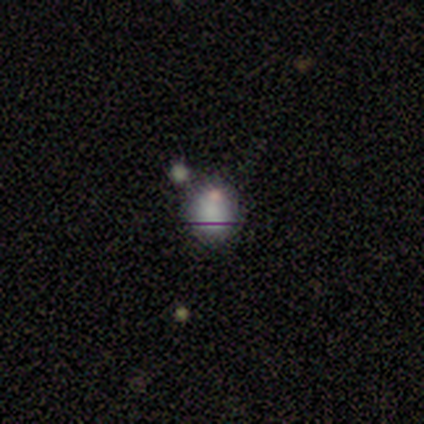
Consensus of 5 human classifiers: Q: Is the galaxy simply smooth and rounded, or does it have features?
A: smooth — 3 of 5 (60%).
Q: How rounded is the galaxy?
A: round — 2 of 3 (67%).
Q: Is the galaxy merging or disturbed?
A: none — 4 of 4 (100%).